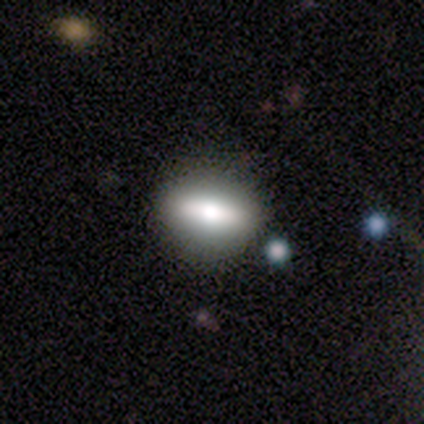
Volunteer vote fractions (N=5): A smooth galaxy with no disk features (60%) that is round (33%, tied with in between and cigar-shaped).

Vote fractions:
- Smooth or featured? smooth: 60% / featured or disk: 40% / star or artifact: 0%
- How rounded? round: 33% (tied) / in between: 33% (tied) / cigar-shaped: 33% (tied)
- Merging? none: 80% / minor disturbance: 20% / major disturbance: 0% / merger: 0%